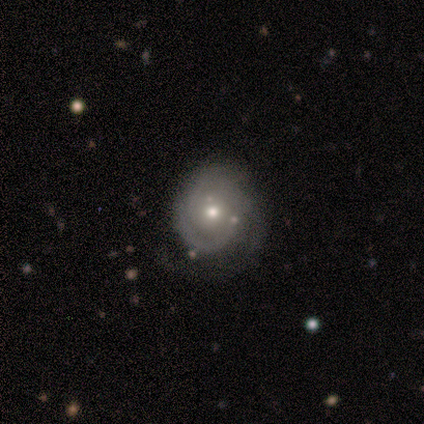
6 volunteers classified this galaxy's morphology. This appears to be a featured or disk galaxy (100%) with no bar (100%), 2 (67%) tight (83%) spiral arms (100%) and a moderate central bulge (67%). Merging: major disturbance (67%).